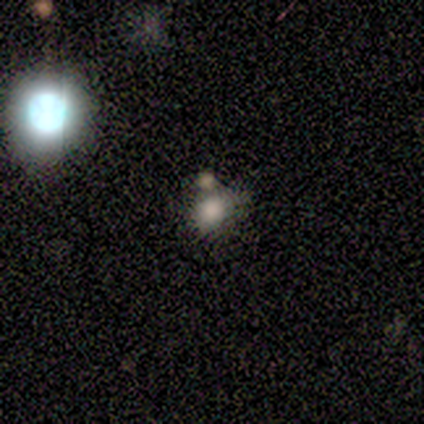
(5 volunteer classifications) smooth-or-featured: smooth: 60% | featured or disk: 20% | star or artifact: 20%
  how-rounded: round: 67% | in between: 33% | cigar-shaped: 0%
  merging: none: 75% | merger: 25% | minor disturbance: 0% | major disturbance: 0%